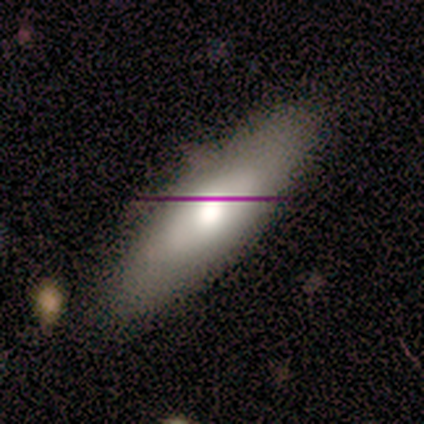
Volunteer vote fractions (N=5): Smooth or featured? smooth (60%)
How rounded? in between (67%)
Merging? none (75%)